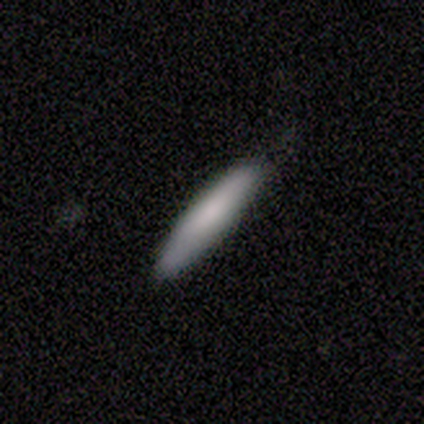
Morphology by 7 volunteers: Overall: smooth (71%). How rounded: cigar-shaped (80%). Merging: none (71%).